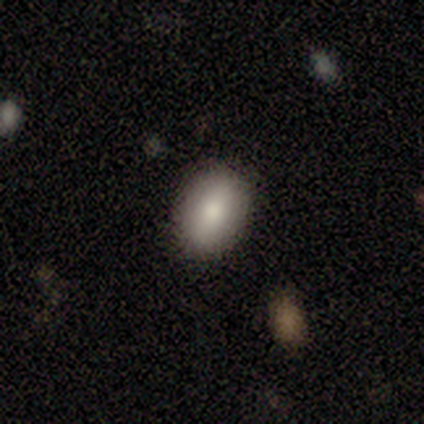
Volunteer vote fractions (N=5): Smooth or featured? smooth (100%)
How rounded? in between (100%)
Merging? none (80%)